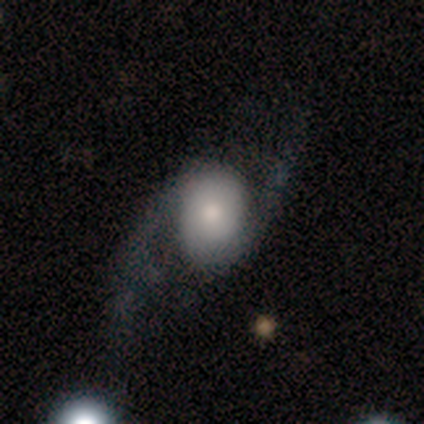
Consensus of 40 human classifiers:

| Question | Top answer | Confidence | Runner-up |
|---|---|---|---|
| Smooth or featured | featured or disk | 68% | smooth (28%) |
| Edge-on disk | no | 89% | yes (11%) |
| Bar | no | 75% | strong (12%) |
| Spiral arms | yes | 88% | no (12%) |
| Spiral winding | loose | 67% | tight (19%) |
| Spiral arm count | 2 | 90% | can't tell (10%) |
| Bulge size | moderate | 42% | small (38%) |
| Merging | none | 42% | major disturbance (32%) |